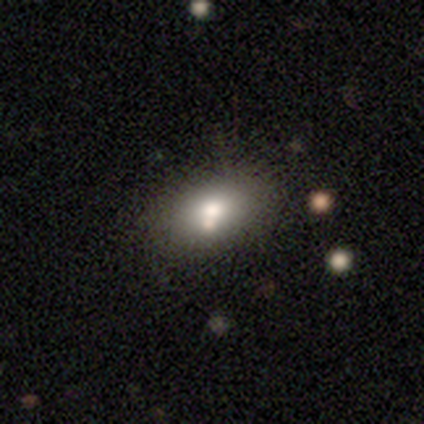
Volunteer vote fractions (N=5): Smooth or featured? 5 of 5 (100%) said smooth. How rounded? 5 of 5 (100%) said in between. Merging? 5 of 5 (100%) said none.